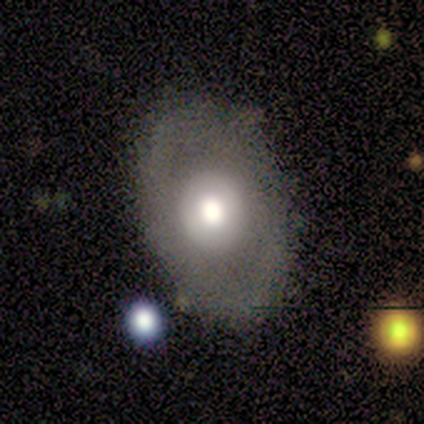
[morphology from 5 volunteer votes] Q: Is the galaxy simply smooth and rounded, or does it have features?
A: smooth — 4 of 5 (80%).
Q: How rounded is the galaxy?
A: in between — 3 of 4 (75%).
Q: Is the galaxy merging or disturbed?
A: none — 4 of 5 (80%).